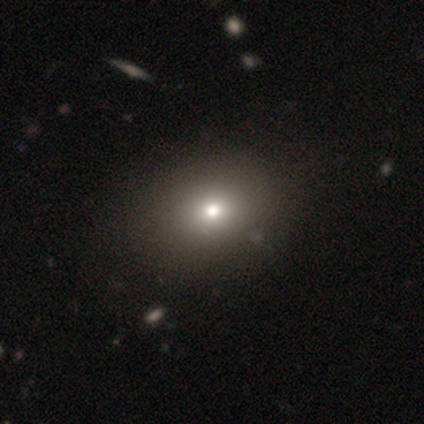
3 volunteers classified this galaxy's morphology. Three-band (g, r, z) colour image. It shows a star or artifact, not a galaxy (67%).